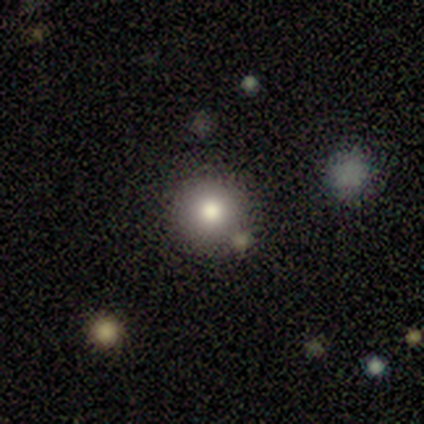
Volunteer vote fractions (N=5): smooth-or-featured: smooth: 100% | featured or disk: 0% | star or artifact: 0%
  how-rounded: round: 100% | in between: 0% | cigar-shaped: 0%
  merging: none: 80% | minor disturbance: 20% | major disturbance: 0% | merger: 0%